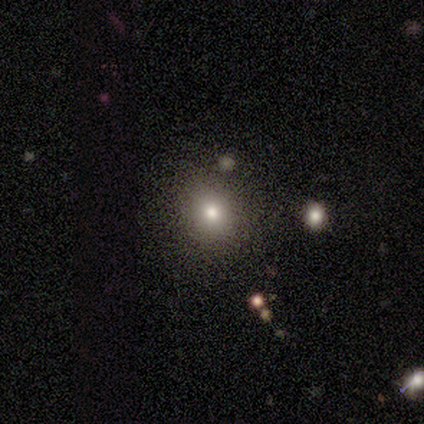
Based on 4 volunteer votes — This appears to be a smooth galaxy with no disk features (50%) that is round (100%). Merging: none (67%).